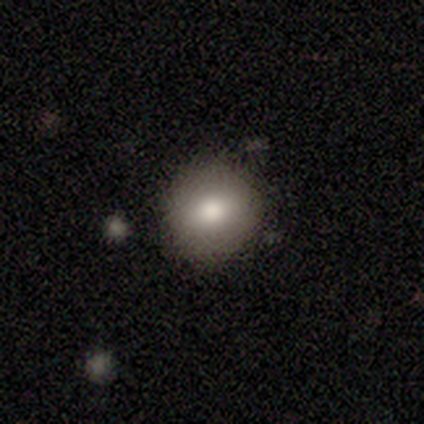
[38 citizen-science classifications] Q: Smooth or featured?
A: smooth (71%); runner-up: featured or disk (24%)
Q: How rounded?
A: round (78%); runner-up: in between (22%)
Q: Merging?
A: none (78%); runner-up: minor disturbance (22%)